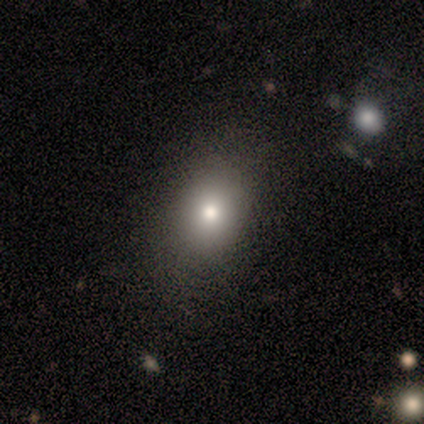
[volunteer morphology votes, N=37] This is likely a smooth galaxy (76%). How rounded: likely in between (64%). Merging: clearly none (82%).